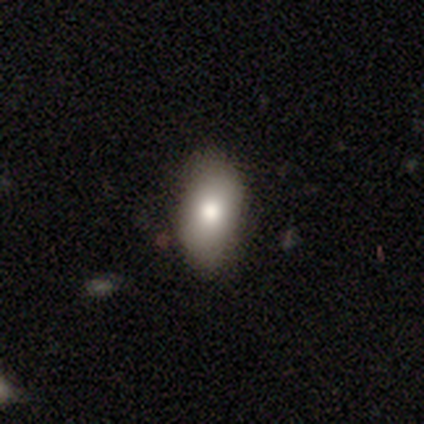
Morphology: type=smooth (82%); roundness=in between (85%); merging=none (85%).